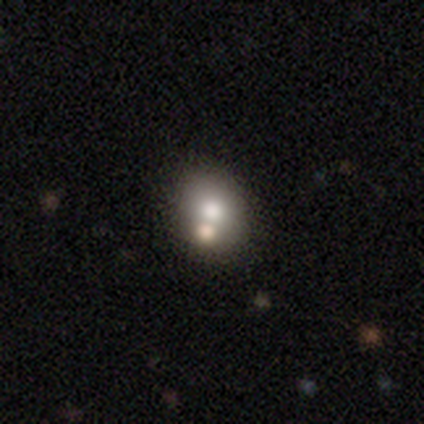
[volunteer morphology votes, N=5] type=smooth (100%); roundness=round (60%); merging=none (60%).